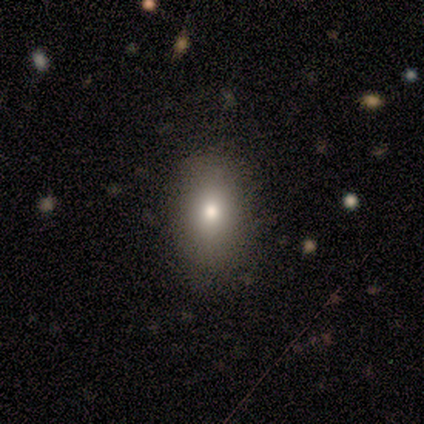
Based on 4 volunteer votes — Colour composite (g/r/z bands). It shows a smooth galaxy with no disk features (100%) that is in between round and cigar-shaped (50%). Merging: none (75%).